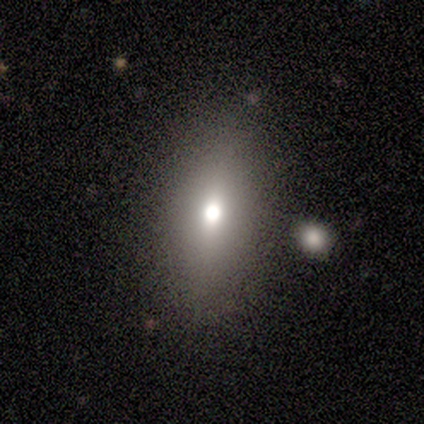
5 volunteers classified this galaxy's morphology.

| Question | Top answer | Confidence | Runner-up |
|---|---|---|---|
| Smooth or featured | smooth | 60% | featured or disk (20%) |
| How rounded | round | 33% | tied: in between (33%), cigar-shaped (33%) |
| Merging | none | 50% | tied: minor disturbance (50%) |